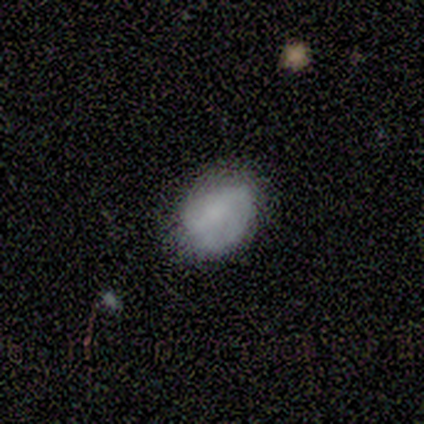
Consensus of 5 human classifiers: This appears to be a featured or disk galaxy (60%) with no bar (67%), 2 (50%, tied with can't tell) tight (50%, tied with loose) spiral arms (67%) and a small central bulge (67%). Merging: none (40%, tied with minor disturbance).